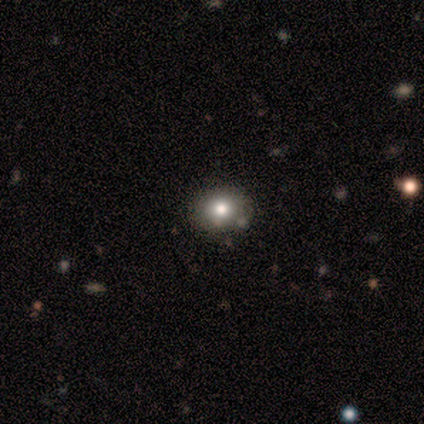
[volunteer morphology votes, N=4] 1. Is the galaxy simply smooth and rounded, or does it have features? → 75% smooth, 25% featured or disk, 0% star or artifact.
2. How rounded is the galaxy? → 67% round, 33% in between, 0% cigar-shaped.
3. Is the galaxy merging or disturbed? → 75% none, 25% minor disturbance, 0% major disturbance, 0% merger.